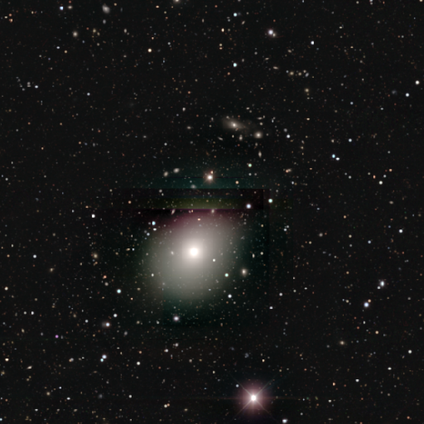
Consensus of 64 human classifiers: Morphology: type=smooth (52%); roundness=in between (58%); merging=none (84%).